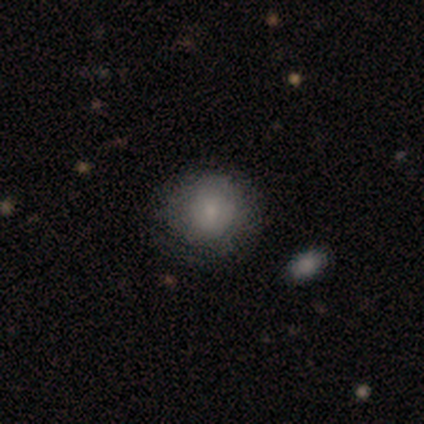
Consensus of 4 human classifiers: smooth_or_featured: smooth (p=1.00)
how_rounded: round (p=1.00)
merging: none (p=0.75) [alt: minor disturbance p=0.25]